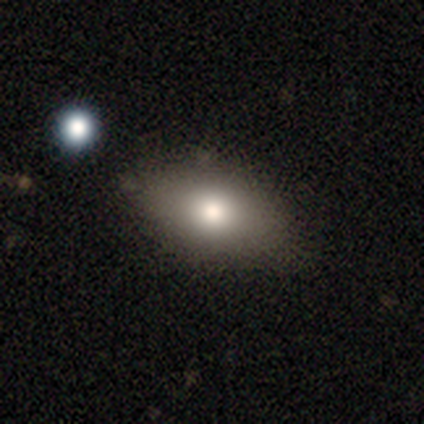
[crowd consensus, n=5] Morphology: type=smooth (80%); roundness=in between (100%); merging=none (100%).